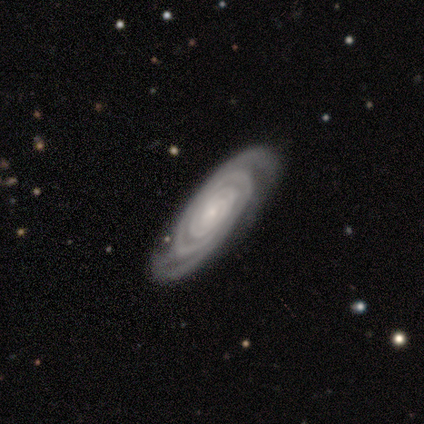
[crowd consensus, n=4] smooth-or-featured: featured or disk: 75% | star or artifact: 25% | smooth: 0%
  disk-edge-on: no: 100% | yes: 0%
    bar: no: 100% | strong: 0% | weak: 0%
    has-spiral-arms: yes: 100% | no: 0%
      spiral-winding: tight: 100% | medium: 0% | loose: 0%
      spiral-arm-count: 2: 33% (tied) | 3: 33% (tied) | can't tell: 33% (tied) | 1: 0% | 4: 0% | more than 4: 0%
    bulge-size: small: 100% | dominant: 0% | large: 0% | moderate: 0% | none: 0%
  merging: none: 67% | minor disturbance: 33% | major disturbance: 0% | merger: 0%